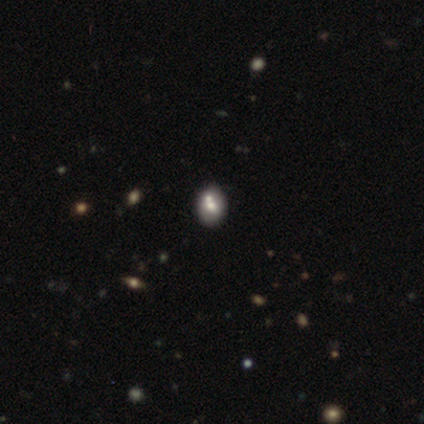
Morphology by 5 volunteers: Q: Smooth or featured?
A: smooth (40%); tied with: star or artifact (40%)
Q: How rounded?
A: round (50%); tied with: in between (50%)
Q: Merging?
A: merger (67%); runner-up: none (33%)